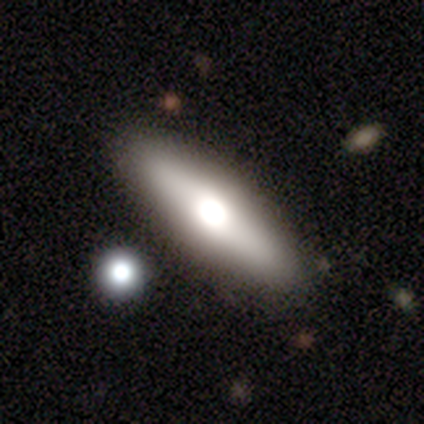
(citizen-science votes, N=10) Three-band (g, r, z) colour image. It shows a smooth galaxy with no disk features (60%) that is in between round and cigar-shaped (50%, tied with cigar-shaped). Merging: none (89%).